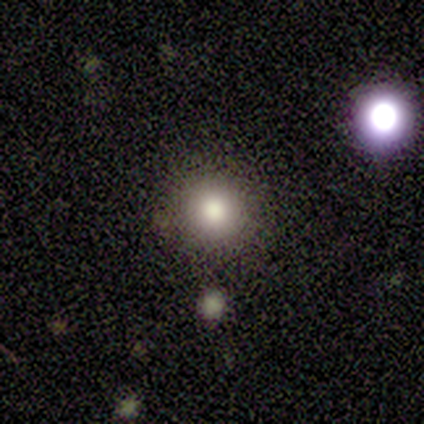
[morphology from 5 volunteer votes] smooth 100%, featured or disk 0%, star or artifact 0%. Down the decision tree: how rounded — round (100%); merging — none (80%).